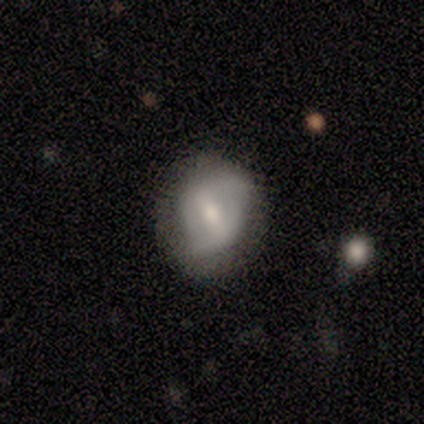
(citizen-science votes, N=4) smooth-or-featured: smooth: 75% | featured or disk: 25% | star or artifact: 0%
  how-rounded: round: 67% | in between: 33% | cigar-shaped: 0%
  merging: none: 75% | minor disturbance: 25% | major disturbance: 0% | merger: 0%